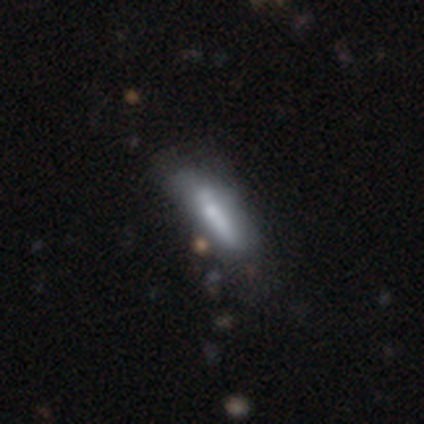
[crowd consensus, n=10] This is likely a smooth galaxy (60%). How rounded: possibly in between (50%, tied with cigar-shaped). Merging: marginally none (38%, tied with minor disturbance).